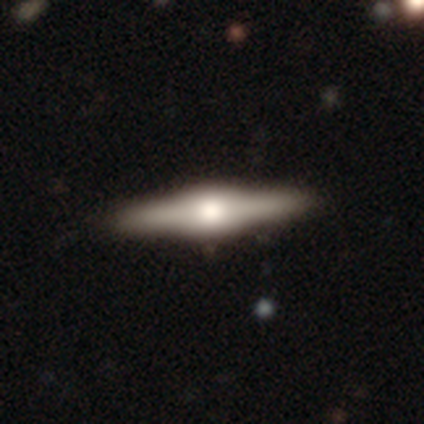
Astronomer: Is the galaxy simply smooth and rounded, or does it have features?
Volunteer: smooth — 50%, tied with featured or disk at 50%.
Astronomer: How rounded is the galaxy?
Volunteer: cigar-shaped — 100%.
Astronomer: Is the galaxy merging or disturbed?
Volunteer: none — 100%.